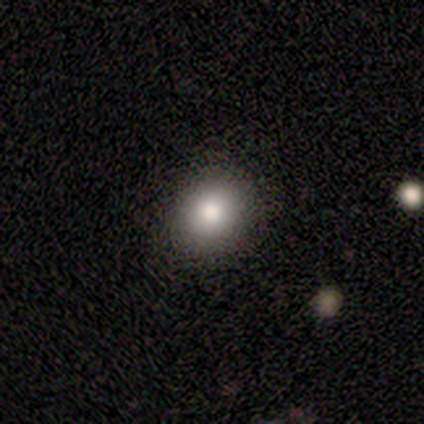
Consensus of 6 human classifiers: A smooth galaxy with no disk features (83%) that is in between round and cigar-shaped (60%).

Vote fractions:
- Smooth or featured? smooth: 83% / star or artifact: 17% / featured or disk: 0%
- How rounded? in between: 60% / round: 40% / cigar-shaped: 0%
- Merging? none: 100% / minor disturbance: 0% / major disturbance: 0% / merger: 0%